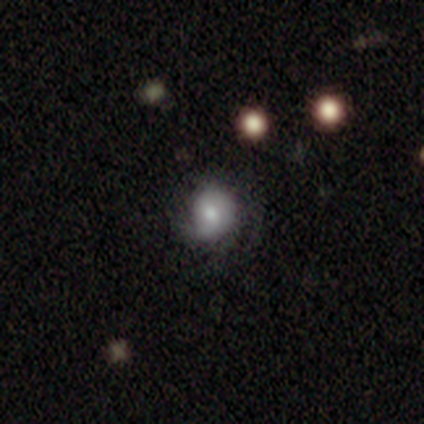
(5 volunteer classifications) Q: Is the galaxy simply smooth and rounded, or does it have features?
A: smooth — 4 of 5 (80%).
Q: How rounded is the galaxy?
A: round — 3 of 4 (75%).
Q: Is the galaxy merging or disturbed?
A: none — 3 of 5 (60%).